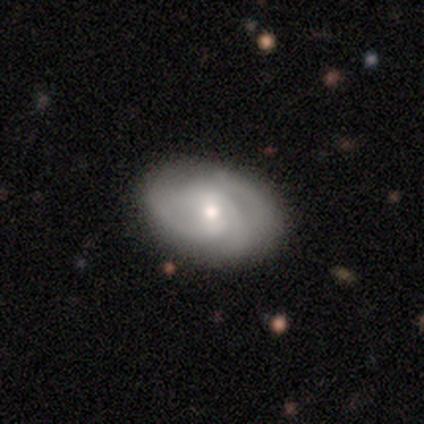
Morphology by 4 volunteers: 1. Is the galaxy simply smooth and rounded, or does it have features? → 75% featured or disk, 25% smooth, 0% star or artifact.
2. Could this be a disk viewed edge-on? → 100% no, 0% yes.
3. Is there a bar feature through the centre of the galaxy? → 67% no, 33% weak, 0% strong.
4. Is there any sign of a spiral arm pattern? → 67% yes, 33% no.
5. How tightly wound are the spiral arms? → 100% tight, 0% medium, 0% loose.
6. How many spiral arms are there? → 50% 3 (tied), 50% can't tell (tied), 0% 1, 0% 2, 0% 4, 0% more than 4.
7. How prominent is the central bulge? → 67% small, 33% moderate, 0% dominant, 0% large, 0% none.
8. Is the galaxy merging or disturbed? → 100% none, 0% minor disturbance, 0% major disturbance, 0% merger.